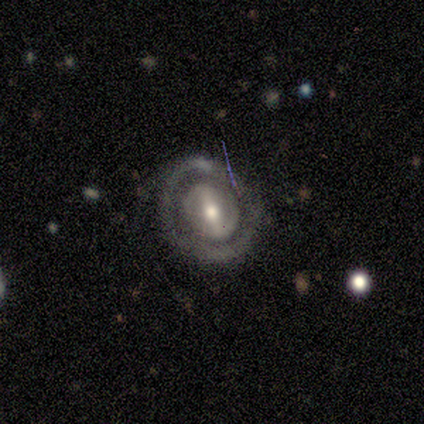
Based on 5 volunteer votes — Smooth or featured? 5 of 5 (100%) said featured or disk. Edge-on disk? 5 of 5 (100%) said no. Bar? 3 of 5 (60%) said strong. Spiral arms? 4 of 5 (80%) said no. Bulge size? 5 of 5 (100%) said moderate. Merging? 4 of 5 (80%) said none.